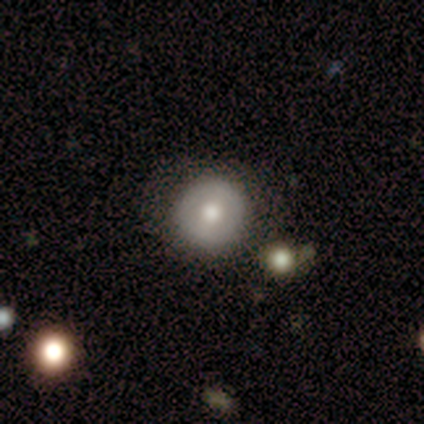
Volunteers were most divided on "smooth or featured": smooth: 60%, featured or disk: 40%, star or artifact: 0%. More confident: merging — none (100%); how rounded — round (67%).